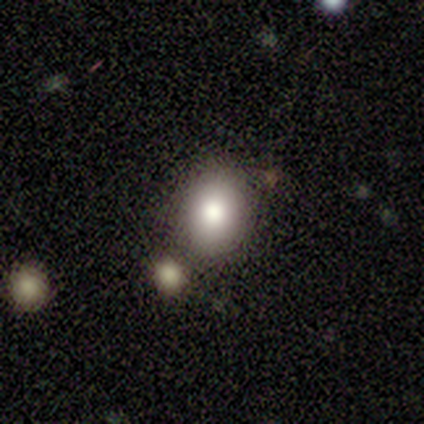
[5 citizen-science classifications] Volunteers were most divided on "merging": none: 75%, major disturbance: 25%, minor disturbance: 0%, merger: 0%. More confident: how rounded — in between (100%); smooth or featured — smooth (80%).